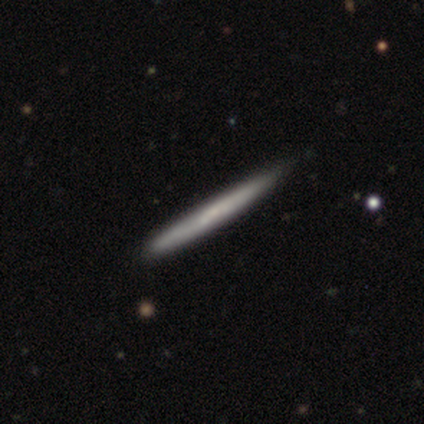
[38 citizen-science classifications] A smooth galaxy with no disk features (50%) that is cigar-shaped (100%). Merging: none (65%).